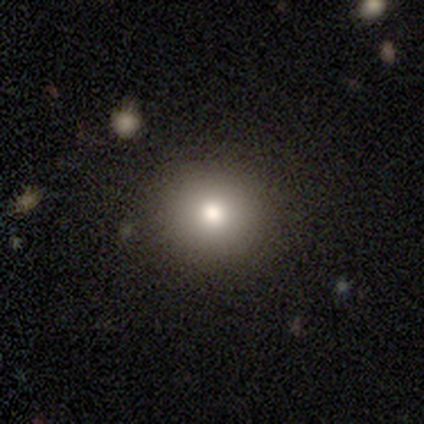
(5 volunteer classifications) Morphology: type=smooth (60%); roundness=round (67%); merging=none (100%).